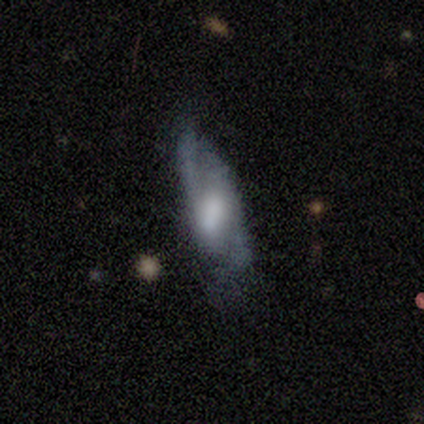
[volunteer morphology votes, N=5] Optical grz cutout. It shows a featured or disk galaxy (60%) with a weak bar (67%), 2 (67%) medium (67%) spiral arms (100%) and a moderate central bulge (67%). Merging: none (60%).